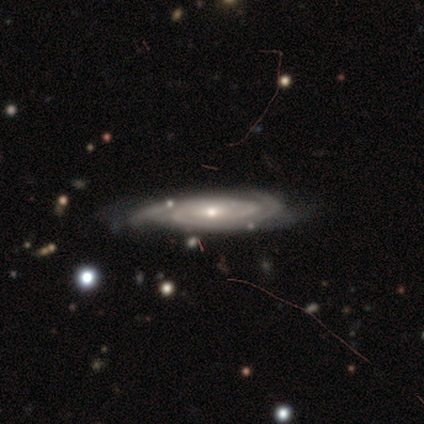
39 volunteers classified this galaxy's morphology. Smooth or featured? featured or disk (85%)
Edge-on disk? no (82%)
Bar? no (74%)
Spiral arms? yes (93%)
Spiral winding? tight (64%)
Spiral arm count? can't tell (52%)
Bulge size? moderate (52%)
Merging? none (67%)